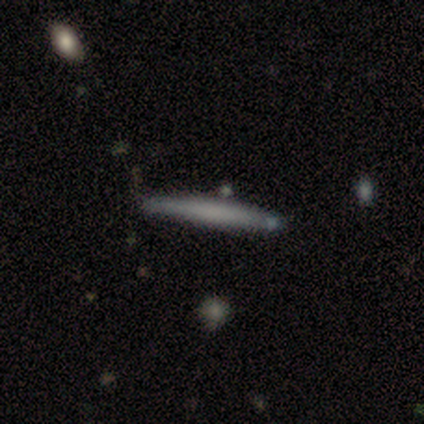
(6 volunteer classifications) Smooth or featured?
  - smooth: 83% *
  - featured or disk: 17%
  - star or artifact: 0%
How rounded?
  - cigar-shaped: 100% *
  - round: 0%
  - in between: 0%
Merging?
  - none: 100% *
  - minor disturbance: 0%
  - major disturbance: 0%
  - merger: 0%